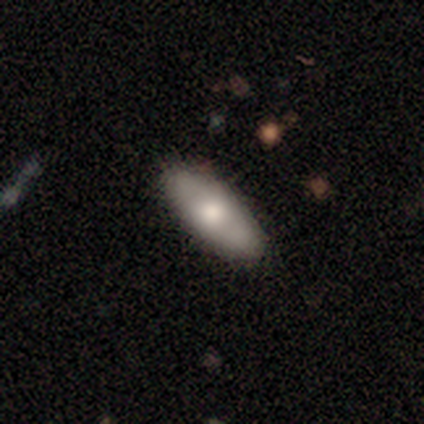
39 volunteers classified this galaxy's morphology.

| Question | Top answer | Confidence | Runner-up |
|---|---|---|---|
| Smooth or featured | smooth | 64% | featured or disk (31%) |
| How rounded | in between | 68% | cigar-shaped (32%) |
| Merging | none | 89% | minor disturbance (8%) |